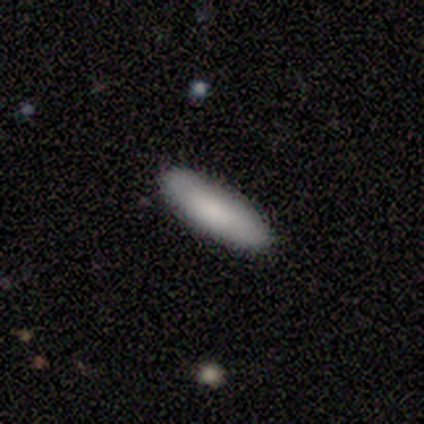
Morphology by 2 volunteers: Smooth or featured? 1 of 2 (50%, tied with star or artifact) said smooth. How rounded? 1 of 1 (100%) said cigar-shaped. Merging? 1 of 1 (100%) said none.